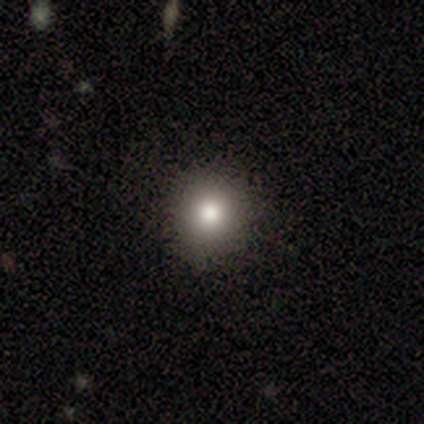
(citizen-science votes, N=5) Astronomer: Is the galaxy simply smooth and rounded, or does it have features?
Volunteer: smooth — 60% (runner-up: featured or disk, 40%).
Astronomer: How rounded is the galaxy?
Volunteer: round — 67%.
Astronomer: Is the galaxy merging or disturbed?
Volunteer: none — 80%.